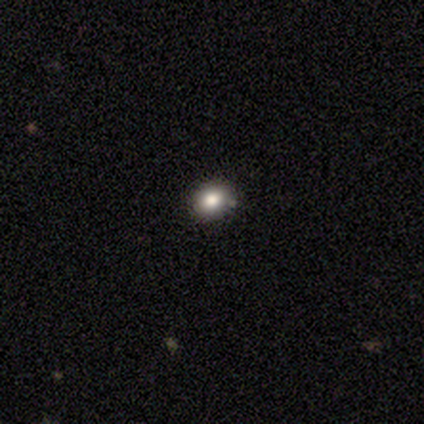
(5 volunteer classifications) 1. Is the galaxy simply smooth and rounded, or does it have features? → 100% smooth, 0% featured or disk, 0% star or artifact.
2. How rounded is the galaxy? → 80% round, 20% in between, 0% cigar-shaped.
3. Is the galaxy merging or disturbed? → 100% none, 0% minor disturbance, 0% major disturbance, 0% merger.